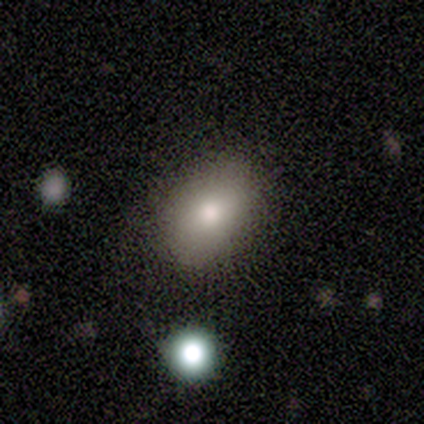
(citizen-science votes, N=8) Smooth or featured?
  - smooth: 50% *
  - featured or disk: 25%
  - star or artifact: 25%
How rounded?
  - in between: 100% *
  - round: 0%
  - cigar-shaped: 0%
Merging?
  - none: 50% *
  - minor disturbance: 33%
  - major disturbance: 17%
  - merger: 0%